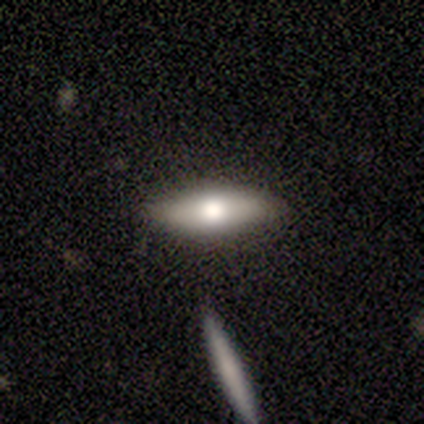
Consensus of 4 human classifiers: featured or disk 75%, smooth 25%, star or artifact 0%. Down the decision tree: edge-on disk — yes (100%); edge-on bulge — rounded (100%); merging — none (100%).